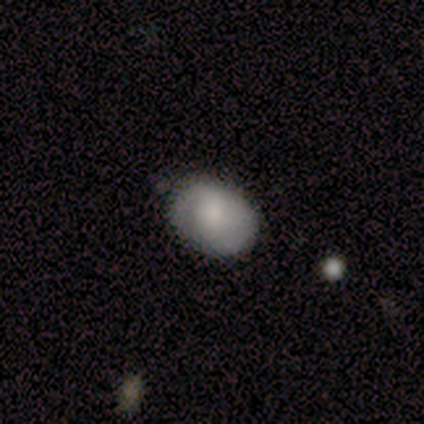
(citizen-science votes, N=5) Q: Smooth or featured?
A: smooth (100%)
Q: How rounded?
A: in between (100%)
Q: Merging?
A: none (100%)